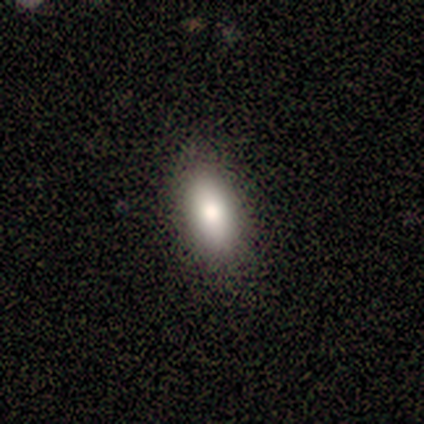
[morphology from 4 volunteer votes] type=smooth (100%); roundness=in between (100%); merging=none (100%).